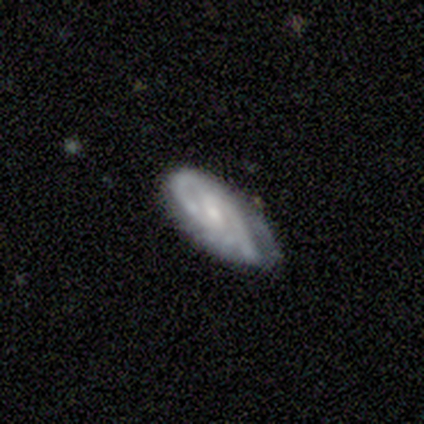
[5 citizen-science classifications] Volunteers were most divided on "merging": none: 60%, minor disturbance: 40%, major disturbance: 0%, merger: 0%. More confident: edge-on disk — no (100%); spiral arms — yes (100%); smooth or featured — featured or disk (80%); spiral winding — loose (75%); spiral arm count — 2 (75%); bulge size — small (75%); bar — no (50%).